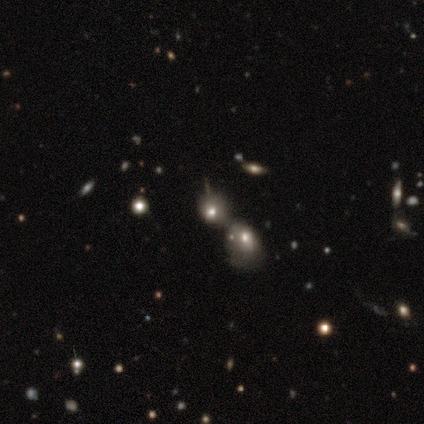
smooth 49%, featured or disk 28%, star or artifact 23%. Down the decision tree: how rounded — round (74%); merging — merger (67%).